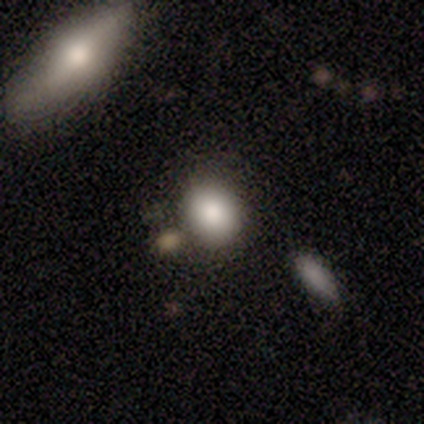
smooth-or-featured: smooth: 80% | star or artifact: 20% | featured or disk: 0%
  how-rounded: in between: 50% | round: 25% | cigar-shaped: 25%
  merging: none: 50% (tied) | minor disturbance: 50% (tied) | major disturbance: 0% | merger: 0%